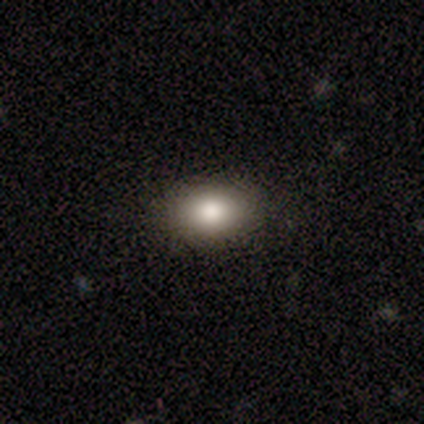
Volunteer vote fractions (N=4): smooth_or_featured: smooth (p=1.00)
how_rounded: round (p=0.50) [tied with: in between p=0.50]
merging: none (p=0.50) [tied with: minor disturbance p=0.50]